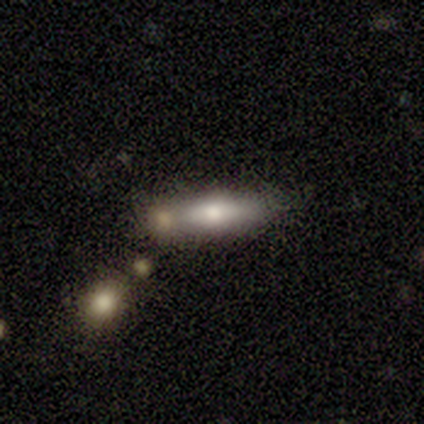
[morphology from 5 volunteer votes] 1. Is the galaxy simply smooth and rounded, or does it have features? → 60% featured or disk, 40% smooth, 0% star or artifact.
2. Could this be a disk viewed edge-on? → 67% yes, 33% no.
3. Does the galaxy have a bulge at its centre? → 100% rounded, 0% boxy, 0% none.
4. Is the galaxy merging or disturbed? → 40% none (tied), 40% merger (tied), 20% minor disturbance, 0% major disturbance.